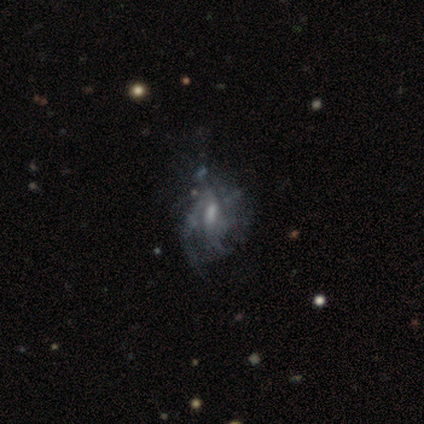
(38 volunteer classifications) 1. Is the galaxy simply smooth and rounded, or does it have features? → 79% featured or disk, 13% star or artifact, 8% smooth.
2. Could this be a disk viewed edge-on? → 97% no, 3% yes.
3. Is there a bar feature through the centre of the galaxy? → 52% weak, 34% no, 14% strong.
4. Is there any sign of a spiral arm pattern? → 79% yes, 21% no.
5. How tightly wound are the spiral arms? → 48% loose, 35% medium, 17% tight.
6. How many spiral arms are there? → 48% can't tell, 30% 2, 13% 3, 9% 4, 0% 1, 0% more than 4.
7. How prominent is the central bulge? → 41% small, 31% moderate, 24% none, 3% large, 0% dominant.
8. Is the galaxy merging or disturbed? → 30% none, 24% minor disturbance, 12% major disturbance, 3% merger.